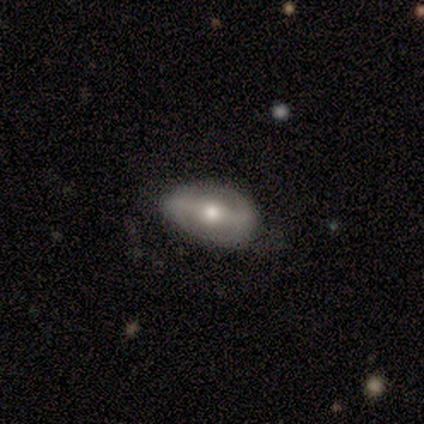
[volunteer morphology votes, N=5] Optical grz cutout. It shows a smooth galaxy with no disk features (40%, tied with featured or disk) that is in between round and cigar-shaped (100%). Merging: none (100%).